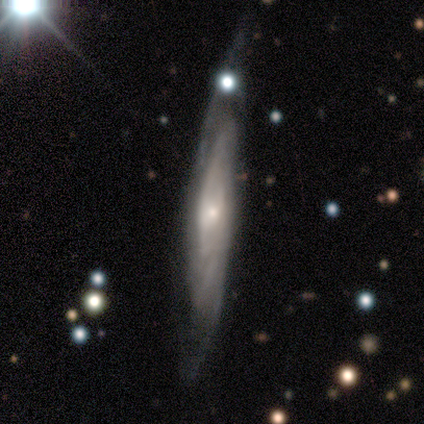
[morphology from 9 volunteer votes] featured or disk 100%, smooth 0%, star or artifact 0%. Down the decision tree: edge-on disk — no (56%); bar — weak (40%, tied with no); spiral arms — yes (100%); spiral arm count — can't tell (60%); spiral winding — medium (80%); bulge size — small (80%); merging — none (78%).